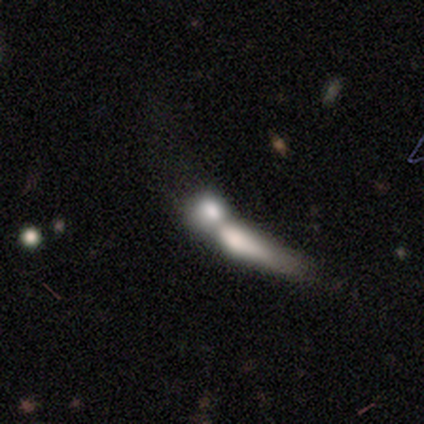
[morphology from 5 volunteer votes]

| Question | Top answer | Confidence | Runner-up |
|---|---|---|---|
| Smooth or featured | smooth | 60% | featured or disk (40%) |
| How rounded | in between | 100% | — |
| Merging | merger | 80% | major disturbance (20%) |